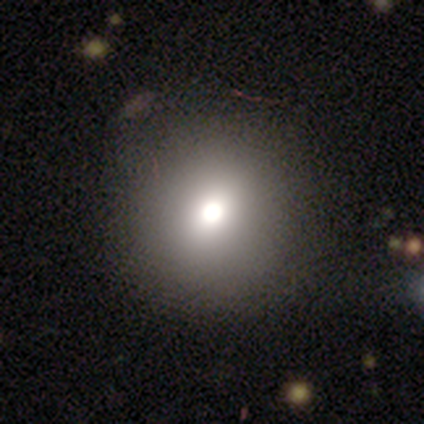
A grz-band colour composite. It shows a smooth galaxy with no disk features (80%) that is round (100%). Merging: none (80%).